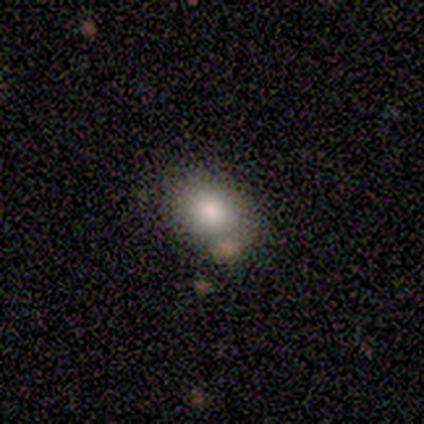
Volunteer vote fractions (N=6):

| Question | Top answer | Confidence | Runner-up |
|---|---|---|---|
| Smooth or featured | smooth | 50% | tied: star or artifact (50%) |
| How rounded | in between | 67% | round (33%) |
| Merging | none | 100% | — |